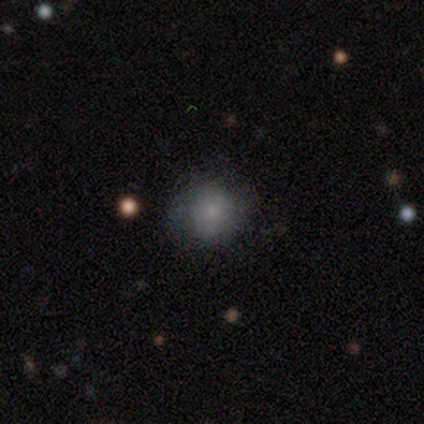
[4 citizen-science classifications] smooth_or_featured: smooth (p=0.75) [alt: star or artifact p=0.25]
how_rounded: round (p=0.67) [alt: in between p=0.33]
merging: none (p=1.00)